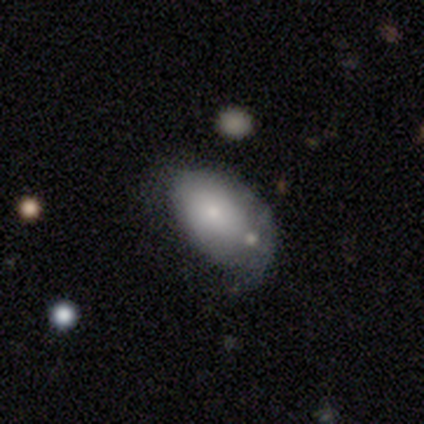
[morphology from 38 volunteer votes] Smooth or featured? 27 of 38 (71%) said smooth. How rounded? 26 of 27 (96%) said in between. Merging? 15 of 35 (43%) said minor disturbance.